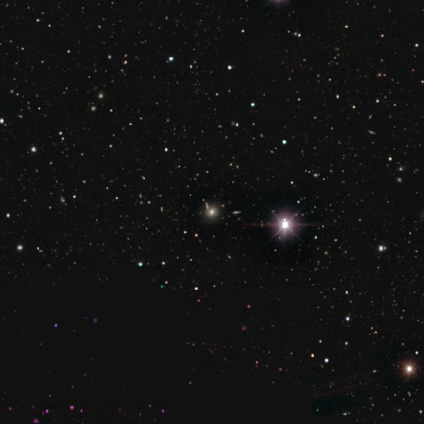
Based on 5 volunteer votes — This appears to be a star or artifact, not a galaxy (60%).